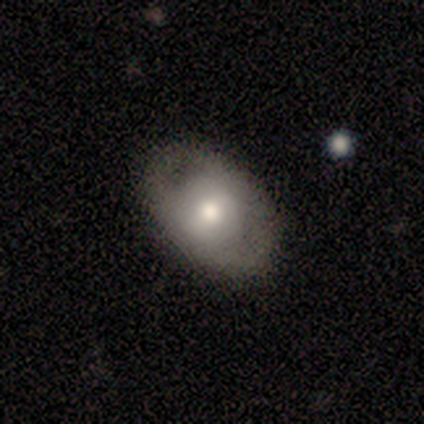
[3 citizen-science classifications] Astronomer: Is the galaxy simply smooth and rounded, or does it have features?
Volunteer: featured or disk — 100%.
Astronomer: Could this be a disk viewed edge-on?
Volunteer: no — 100%.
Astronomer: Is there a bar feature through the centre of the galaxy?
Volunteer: weak — 67%.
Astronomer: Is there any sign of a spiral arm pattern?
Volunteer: no — 100%.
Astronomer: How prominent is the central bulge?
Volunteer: moderate — 67%.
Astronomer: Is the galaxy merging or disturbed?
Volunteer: none — 100%.